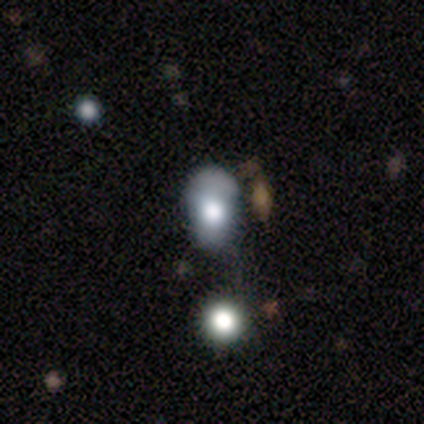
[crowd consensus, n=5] Smooth or featured? 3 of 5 (60%) said smooth. How rounded? 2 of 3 (67%) said in between. Merging? 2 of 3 (67%) said minor disturbance.